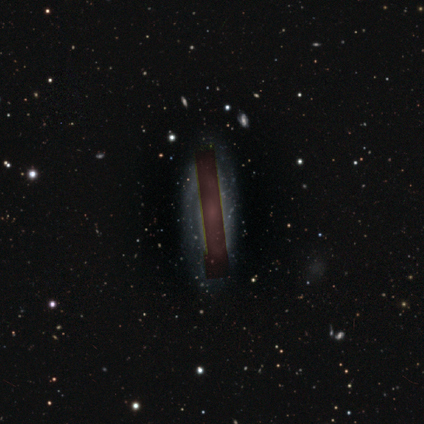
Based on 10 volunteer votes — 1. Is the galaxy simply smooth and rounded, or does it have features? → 40% featured or disk (tied), 40% star or artifact (tied), 20% smooth.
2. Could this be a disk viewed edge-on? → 100% no, 0% yes.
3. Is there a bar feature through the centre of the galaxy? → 50% weak, 25% strong, 25% no.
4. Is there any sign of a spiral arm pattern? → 50% yes (tied), 50% no (tied).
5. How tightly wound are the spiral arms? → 100% medium, 0% tight, 0% loose.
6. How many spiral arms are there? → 100% 2, 0% 1, 0% 3, 0% 4, 0% more than 4, 0% can't tell.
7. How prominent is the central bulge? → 50% small, 25% moderate, 25% none, 0% dominant, 0% large.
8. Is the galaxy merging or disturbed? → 50% none, 33% minor disturbance, 17% major disturbance, 0% merger.